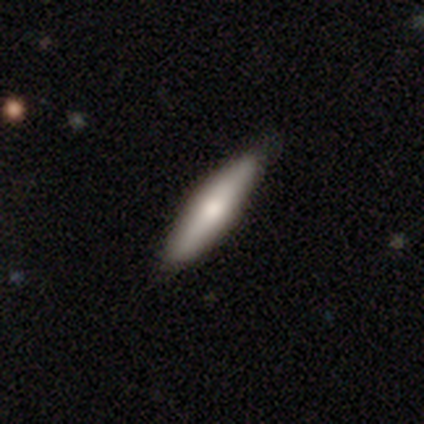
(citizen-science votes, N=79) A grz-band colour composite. It shows a smooth galaxy with no disk features (72%) that is cigar-shaped (74%). Merging: none (45%).